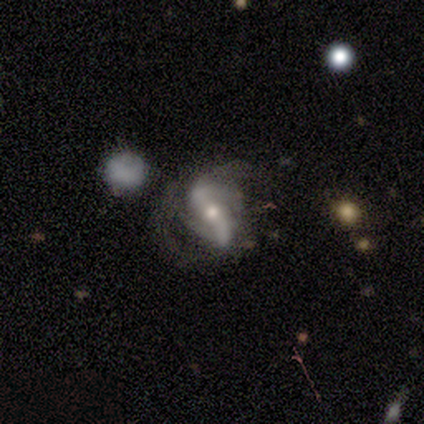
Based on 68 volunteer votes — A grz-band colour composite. It shows a featured or disk galaxy (93%) with a strong bar (57%), 2 (79%) loose (38%) spiral arms (93%) and a moderate central bulge (67%). Merging: none (37%).